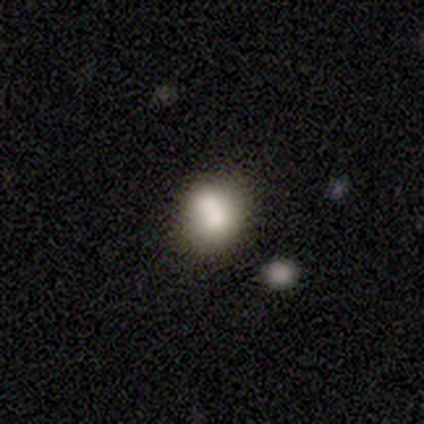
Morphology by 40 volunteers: Smooth or featured? smooth (72%)
How rounded? round (62%)
Merging? none (48%)